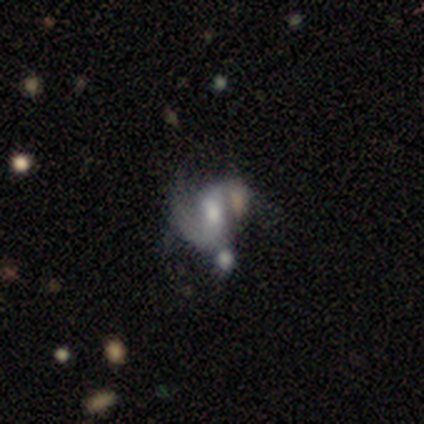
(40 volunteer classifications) Volunteers were most divided on "merging": merger: 29%, none: 26%, major disturbance: 24%, minor disturbance: 21%. Remaining: edge-on disk — no (100%); spiral arms — yes (88%); smooth or featured — featured or disk (82%); bar — weak (55%); spiral arm count — 1 (48%); spiral winding — loose (45%); bulge size — moderate (39%).